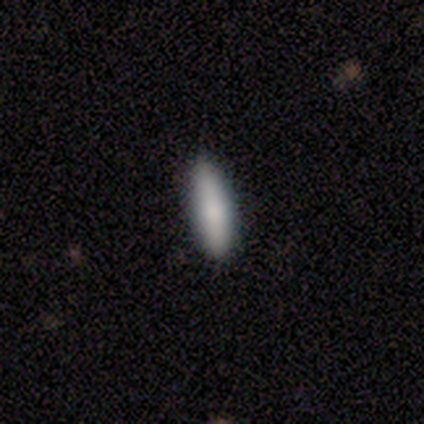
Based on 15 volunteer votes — A smooth galaxy with no disk features (93%) that is cigar-shaped (50%). Merging: none (79%).